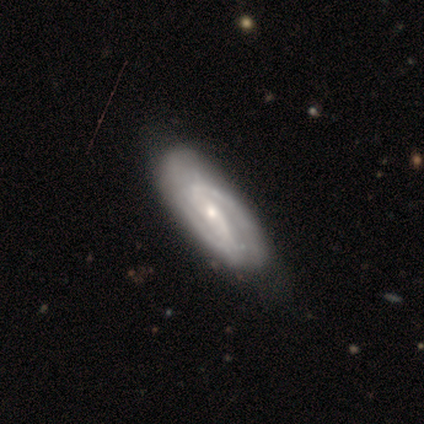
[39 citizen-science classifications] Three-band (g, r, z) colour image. It shows a featured or disk galaxy (87%) with no bar (45%), 2 (86%) medium (50%) spiral arms (90%) and a moderate central bulge (55%). Merging: none (76%).